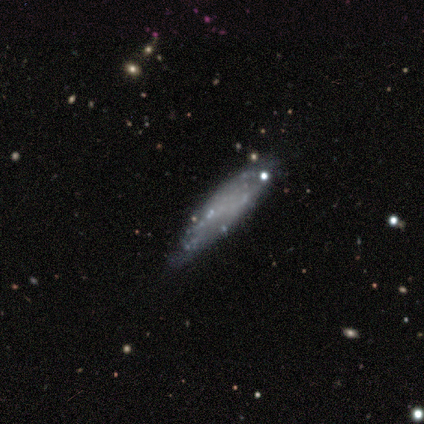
Q: Smooth or featured?
A: smooth (64%); runner-up: featured or disk (36%)
Q: How rounded?
A: cigar-shaped (71%); runner-up: in between (29%)
Q: Merging?
A: minor disturbance (55%); runner-up: none (45%)